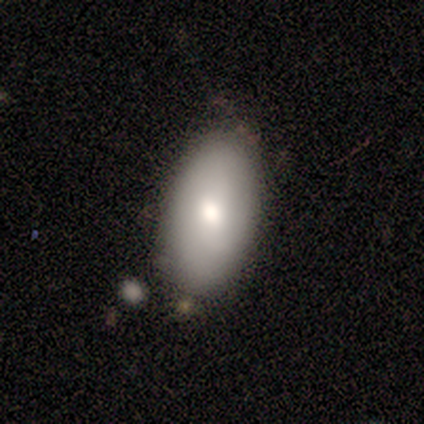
smooth 88%, featured or disk 12%, star or artifact 0%. Down the decision tree: how rounded — in between (71%); merging — none (62%).